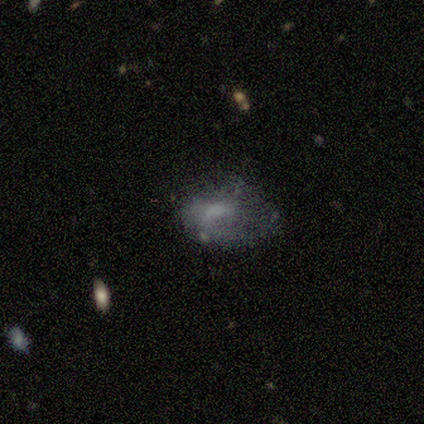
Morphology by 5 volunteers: A smooth galaxy with no disk features (60%) that is in between round and cigar-shaped (100%).

Vote fractions:
- Smooth or featured? smooth: 60% / featured or disk: 40% / star or artifact: 0%
- How rounded? in between: 100% / round: 0% / cigar-shaped: 0%
- Merging? none: 40% (tied) / minor disturbance: 40% (tied) / major disturbance: 20% / merger: 0%